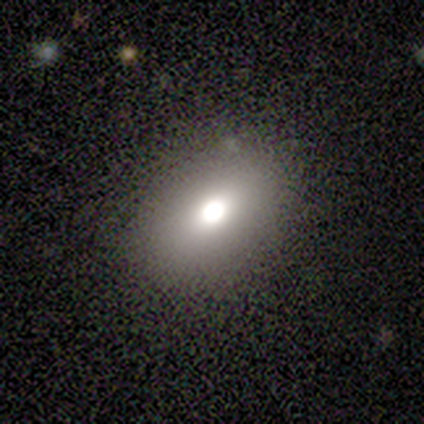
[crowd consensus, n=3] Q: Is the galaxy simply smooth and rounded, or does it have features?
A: smooth — 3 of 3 (100%).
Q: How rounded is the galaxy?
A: in between — 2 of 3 (67%).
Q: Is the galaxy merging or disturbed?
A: none — 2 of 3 (67%).